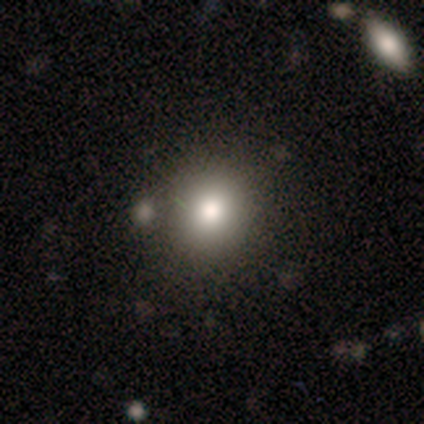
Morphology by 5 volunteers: smooth-or-featured: smooth: 80% | featured or disk: 20% | star or artifact: 0%
  how-rounded: round: 75% | in between: 25% | cigar-shaped: 0%
  merging: none: 80% | merger: 20% | minor disturbance: 0% | major disturbance: 0%